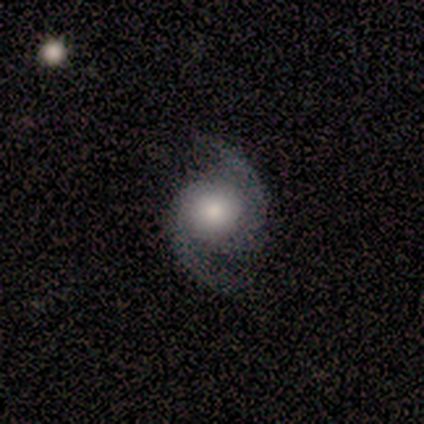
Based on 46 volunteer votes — smooth-or-featured: featured or disk: 87% | smooth: 11% | star or artifact: 2%
  disk-edge-on: no: 100% | yes: 0%
    bar: no: 80% | weak: 15% | strong: 5%
    has-spiral-arms: yes: 98% | no: 2%
      spiral-winding: medium: 67% | loose: 26% | tight: 8%
      spiral-arm-count: 2: 92% | 1: 5% | 3: 3% | 4: 0% | more than 4: 0% | can't tell: 0%
    bulge-size: large: 38% (tied) | moderate: 38% (tied) | small: 18% | dominant: 8% | none: 0%
  merging: none: 67% | major disturbance: 18% | minor disturbance: 11% | merger: 4%